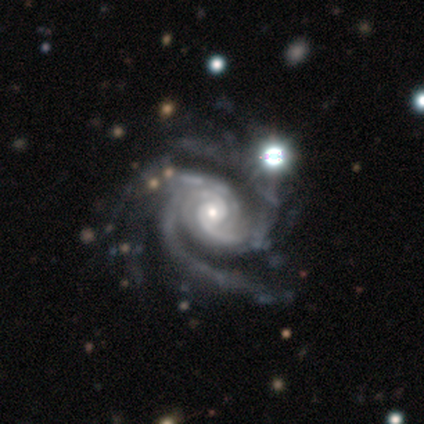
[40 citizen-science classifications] This appears to be a featured or disk galaxy (100%) with no bar (72%), 3 (28%, tied with 4) tight (62%) spiral arms (100%) and a small central bulge (49%). Merging: none (42%).